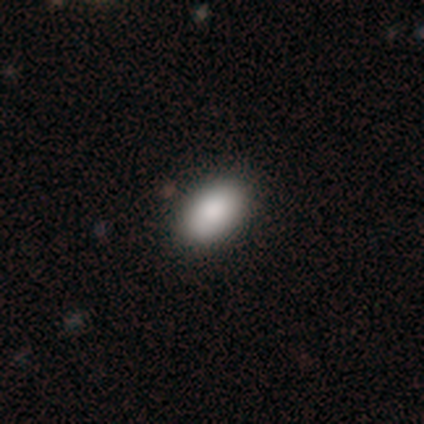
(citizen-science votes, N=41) Overall: smooth (93%). How rounded: in between (89%). Merging: none (75%).